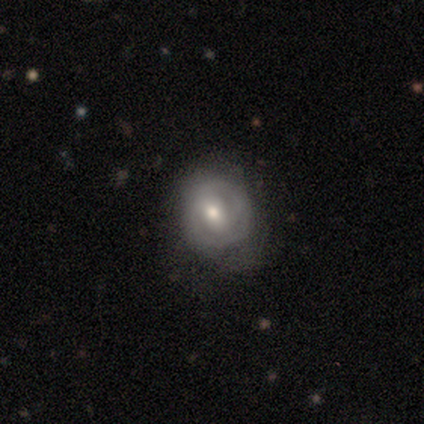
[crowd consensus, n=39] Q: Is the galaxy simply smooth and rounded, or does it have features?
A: featured or disk — 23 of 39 (59%).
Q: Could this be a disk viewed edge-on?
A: no — 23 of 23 (100%).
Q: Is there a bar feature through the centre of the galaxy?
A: no — 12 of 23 (52%).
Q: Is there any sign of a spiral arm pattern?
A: yes — 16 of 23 (70%).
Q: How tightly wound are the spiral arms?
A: tight — 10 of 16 (62%).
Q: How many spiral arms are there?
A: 2 — 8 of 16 (50%).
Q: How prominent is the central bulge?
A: moderate — 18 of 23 (78%).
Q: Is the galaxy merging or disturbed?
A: none — 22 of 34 (65%).